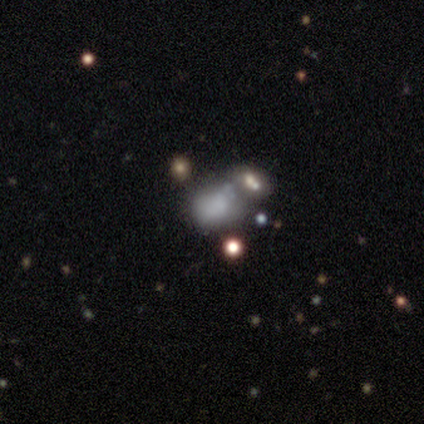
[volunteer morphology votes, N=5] Overall: smooth (60%; star or artifact 40%). How rounded: round (67%; in between 33%). Merging: minor disturbance (33%, tied with major disturbance and merger).